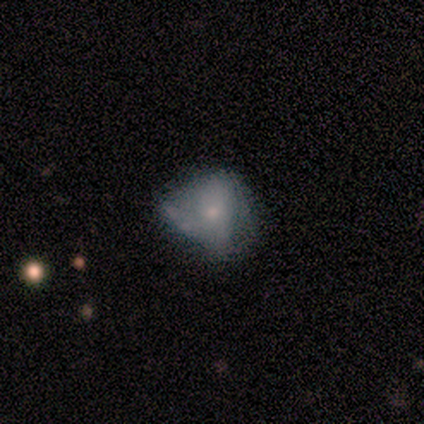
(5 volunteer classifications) This appears to be a smooth galaxy with no disk features (60%) that is round (67%). Merging: none (75%).